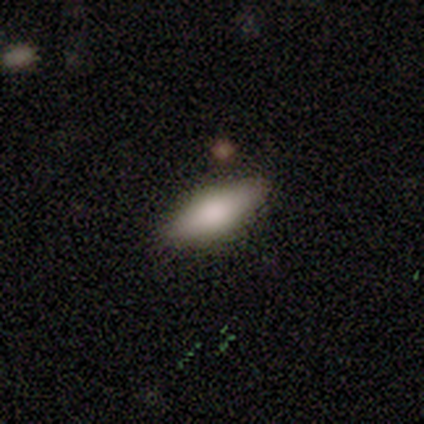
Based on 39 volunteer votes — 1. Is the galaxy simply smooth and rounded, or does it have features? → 74% smooth, 21% featured or disk, 5% star or artifact.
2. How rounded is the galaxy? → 79% in between, 21% cigar-shaped, 0% round.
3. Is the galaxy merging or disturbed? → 92% none, 8% minor disturbance, 0% major disturbance, 0% merger.